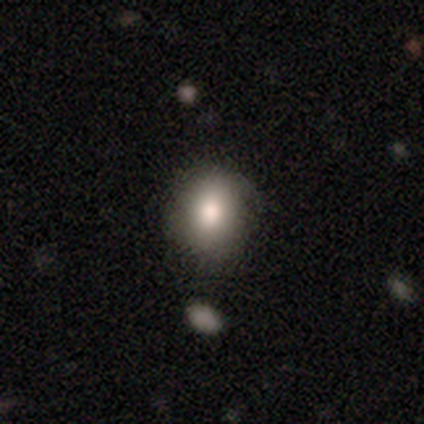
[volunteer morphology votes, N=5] Overall: smooth (100%). How rounded: in between (60%; round 40%). Merging: none (60%; minor disturbance 40%).